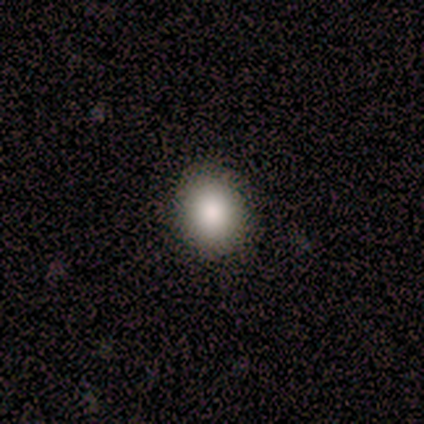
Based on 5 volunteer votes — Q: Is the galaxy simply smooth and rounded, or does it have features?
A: smooth — 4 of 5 (80%).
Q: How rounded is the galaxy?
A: round — 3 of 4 (75%).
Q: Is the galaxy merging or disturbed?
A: none — 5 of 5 (100%).